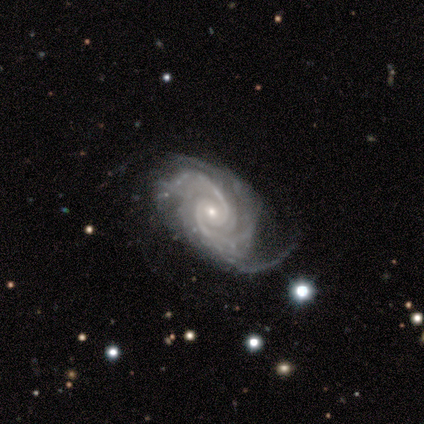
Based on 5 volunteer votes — This appears to be a featured or disk galaxy (100%) with a weak bar (60%), 3 (80%) medium (60%) spiral arms (100%) and a moderate central bulge (60%). Merging: none (80%).